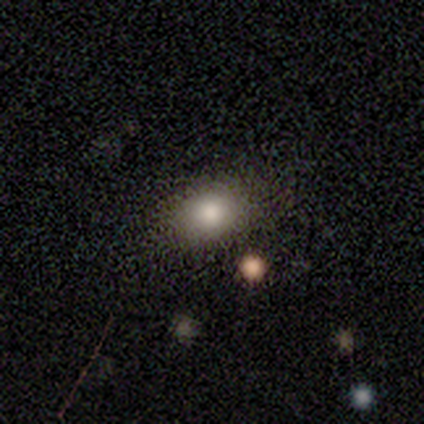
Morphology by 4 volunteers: type=smooth (100%); roundness=round (75%); merging=none (50%).